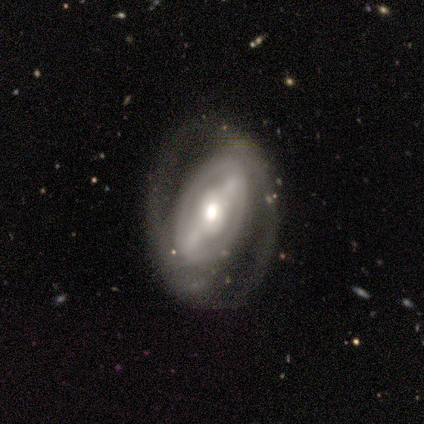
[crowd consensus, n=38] Smooth or featured? 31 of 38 (82%) said featured or disk. Edge-on disk? 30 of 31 (97%) said no. Bar? 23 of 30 (77%) said strong. Spiral arms? 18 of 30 (60%) said yes. Spiral winding? 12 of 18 (67%) said medium. Spiral arm count? 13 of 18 (72%) said 2. Bulge size? 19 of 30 (63%) said moderate. Merging? 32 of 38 (84%) said none.